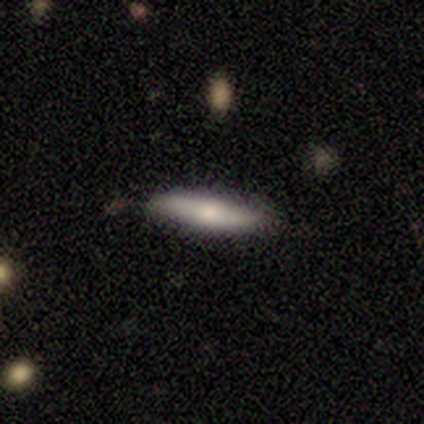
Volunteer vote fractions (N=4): Smooth or featured? smooth (50%, tied with featured or disk)
How rounded? in between (50%, tied with cigar-shaped)
Merging? none (100%)